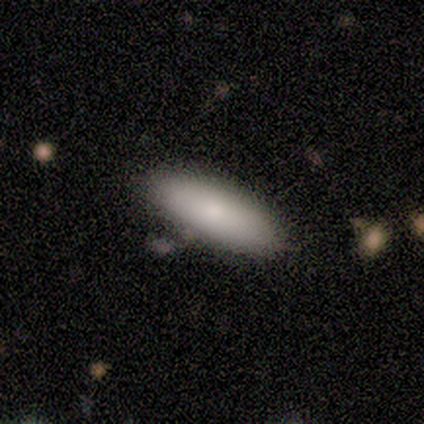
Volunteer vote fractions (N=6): smooth_or_featured: smooth (p=0.67) [alt: featured or disk p=0.17]
how_rounded: in between (p=1.00)
merging: none (p=1.00)